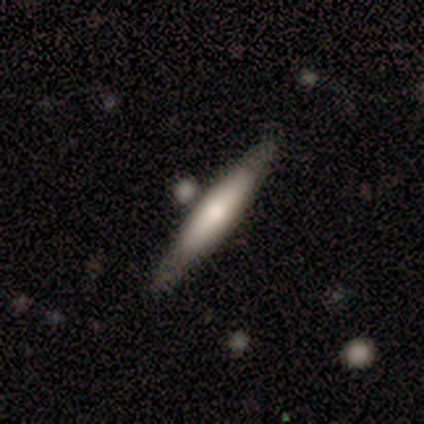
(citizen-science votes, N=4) This is clearly a smooth galaxy (100%). How rounded: clearly cigar-shaped (100%). Merging: possibly none (50%, tied with merger).